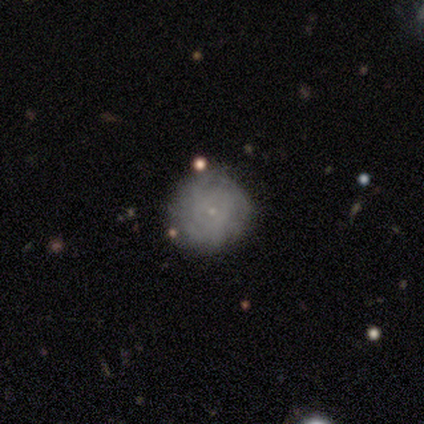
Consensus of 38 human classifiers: A smooth galaxy with no disk features (47%, tied with featured or disk) that is round (100%).

Vote fractions:
- Smooth or featured? smooth: 47% (tied) / featured or disk: 47% (tied) / star or artifact: 5%
- How rounded? round: 100% / in between: 0% / cigar-shaped: 0%
- Merging? none: 89% / minor disturbance: 6% / major disturbance: 6% / merger: 0%